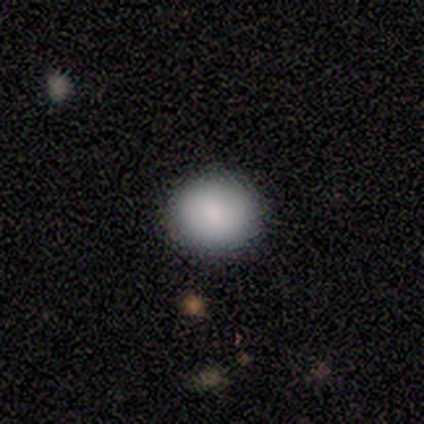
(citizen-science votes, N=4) Smooth or featured? smooth (100%)
How rounded? round (75%)
Merging? none (75%)